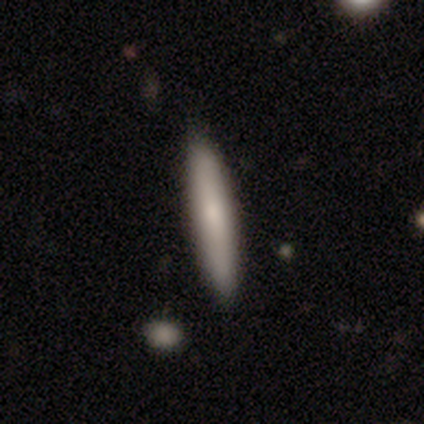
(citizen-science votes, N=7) Overall: smooth (100%). How rounded: cigar-shaped (100%). Merging: none (100%).